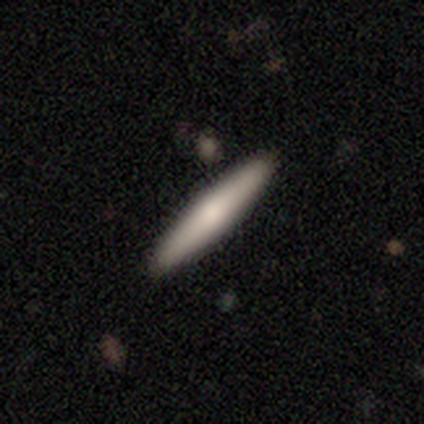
This is clearly a featured or disk galaxy (80%). It is clearly viewed edge-on (100%). Edge-on bulge: likely rounded (75%). Merging: clearly none (100%).